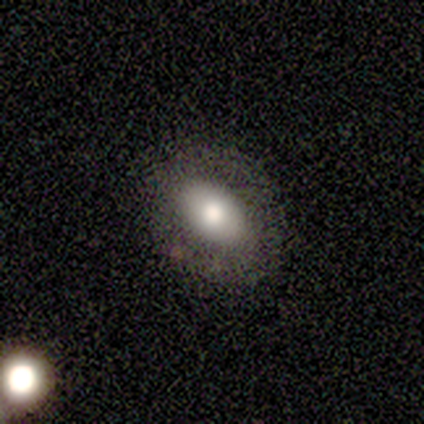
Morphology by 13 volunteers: smooth 85%, featured or disk 8%, star or artifact 8%. Down the decision tree: how rounded — in between (100%); merging — none (92%).